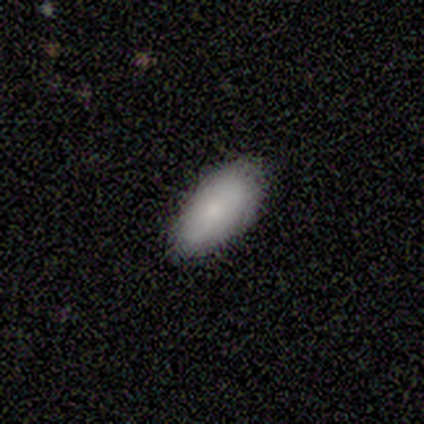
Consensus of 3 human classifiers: Volunteers were most divided on "merging": none: 67%, merger: 33%, minor disturbance: 0%, major disturbance: 0%. More confident: smooth or featured — smooth (100%); how rounded — in between (100%).